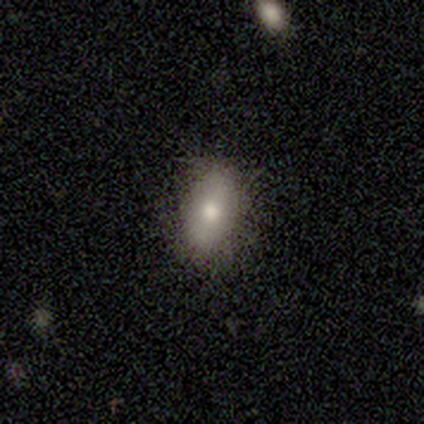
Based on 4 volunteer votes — A smooth galaxy with no disk features (75%) that is in between round and cigar-shaped (100%). Merging: none (75%).